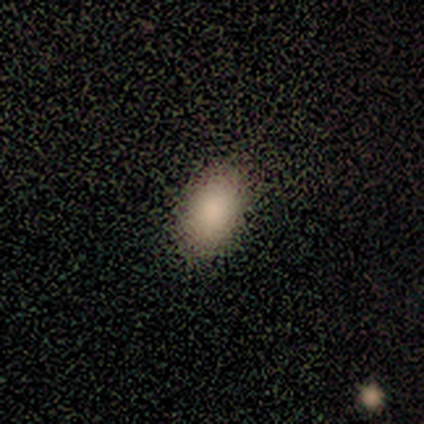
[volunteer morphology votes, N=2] Smooth or featured? smooth (50%, tied with star or artifact)
How rounded? in between (100%)
Merging? none (100%)